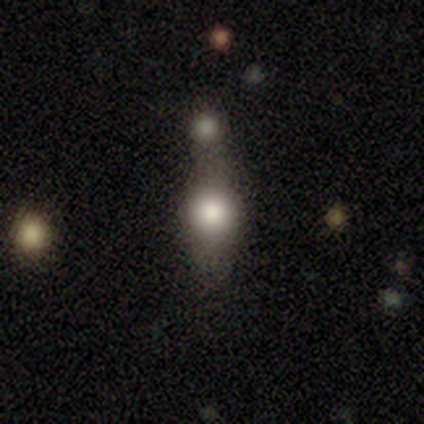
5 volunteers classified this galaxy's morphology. Overall: smooth (60%; featured or disk 20%). How rounded: in between (67%; round 33%). Merging: merger (50%; none 25%).